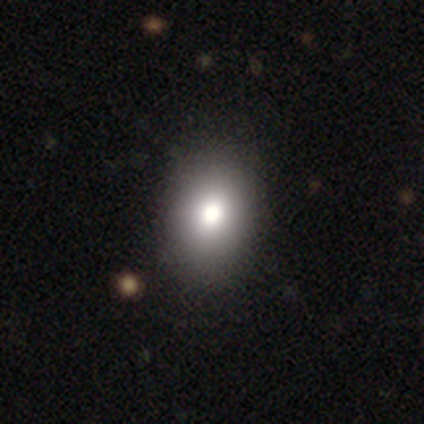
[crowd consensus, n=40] This is likely a smooth galaxy (78%). How rounded: possibly in between (58%). Merging: likely none (63%).